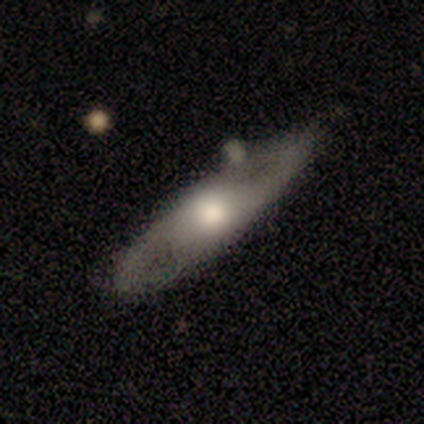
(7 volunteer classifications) Smooth or featured? 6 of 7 (86%) said featured or disk. Edge-on disk? 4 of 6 (67%) said no. Bar? 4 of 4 (100%) said no. Spiral arms? 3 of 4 (75%) said yes. Spiral winding? 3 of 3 (100%) said medium. Spiral arm count? 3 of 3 (100%) said 2. Bulge size? 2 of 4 (50%) said moderate. Merging? 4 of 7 (57%) said none.